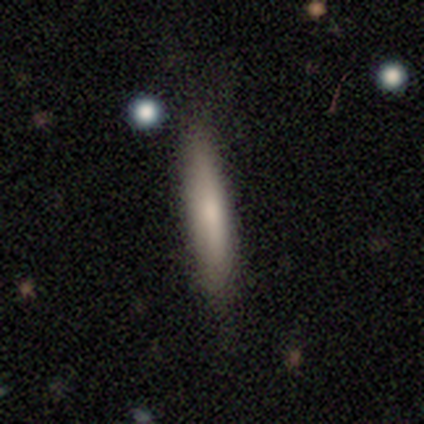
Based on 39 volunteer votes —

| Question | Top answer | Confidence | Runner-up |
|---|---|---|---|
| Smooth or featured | smooth | 69% | featured or disk (28%) |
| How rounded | cigar-shaped | 89% | in between (7%) |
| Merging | none | 82% | minor disturbance (13%) |